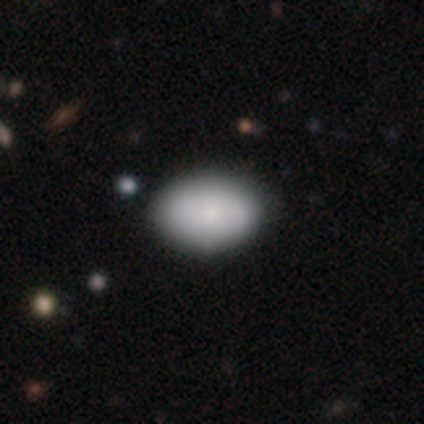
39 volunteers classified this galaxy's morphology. Smooth or featured?
  - smooth: 69% *
  - featured or disk: 23%
  - star or artifact: 8%
How rounded?
  - in between: 89% *
  - round: 11%
  - cigar-shaped: 0%
Merging?
  - none: 67% *
  - minor disturbance: 6%
  - major disturbance: 0%
  - merger: 0%